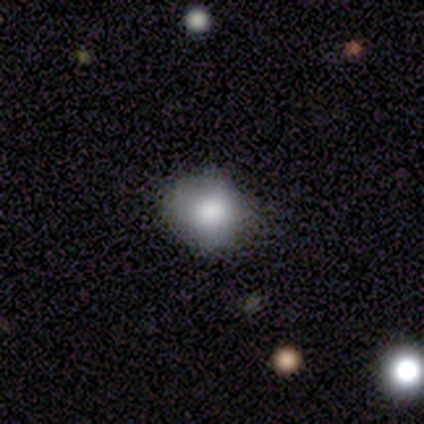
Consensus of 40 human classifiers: Smooth or featured? smooth (70%)
How rounded? round (64%)
Merging? none (68%)